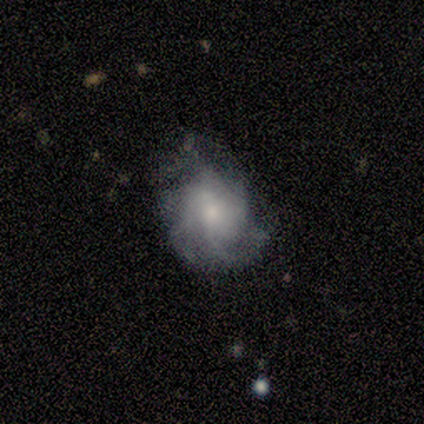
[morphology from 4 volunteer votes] This is likely a featured or disk galaxy (75%). It is clearly not viewed edge-on (100%). Bar: clearly no (100%). Spiral arm pattern: clearly yes (100%). Spiral arm count: marginally 3 (33%, tied with 4 and can't tell). Spiral winding: clearly medium (100%). Central bulge: clearly small (100%). Merging: likely minor disturbance (75%).